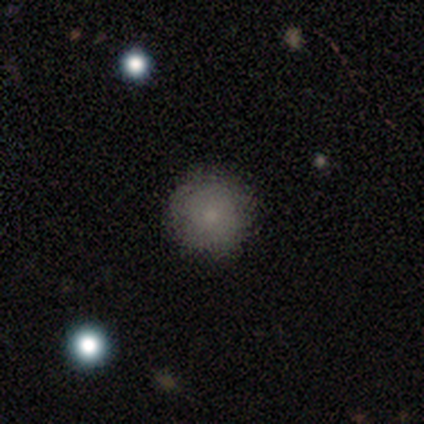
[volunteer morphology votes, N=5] type=smooth (80%); roundness=round (100%); merging=none (100%).